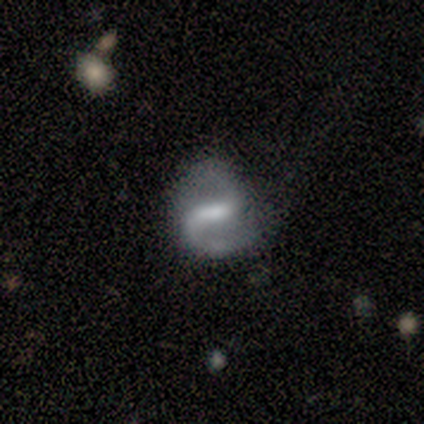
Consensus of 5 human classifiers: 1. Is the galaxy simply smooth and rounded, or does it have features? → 80% featured or disk, 20% smooth, 0% star or artifact.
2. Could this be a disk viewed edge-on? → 100% no, 0% yes.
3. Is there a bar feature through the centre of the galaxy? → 75% weak, 25% no, 0% strong.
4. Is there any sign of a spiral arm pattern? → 100% yes, 0% no.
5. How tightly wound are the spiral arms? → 75% loose, 25% medium, 0% tight.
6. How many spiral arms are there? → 75% 2, 25% can't tell, 0% 1, 0% 3, 0% 4, 0% more than 4.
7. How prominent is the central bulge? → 75% moderate, 25% small, 0% dominant, 0% large, 0% none.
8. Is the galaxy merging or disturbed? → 60% none, 20% minor disturbance, 20% major disturbance, 0% merger.